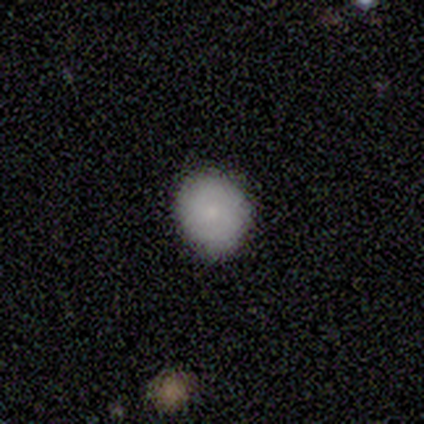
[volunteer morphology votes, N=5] Smooth or featured: smooth — 100%
How rounded: round — 100%
Merging: none — 60% (minor disturbance — 40%)